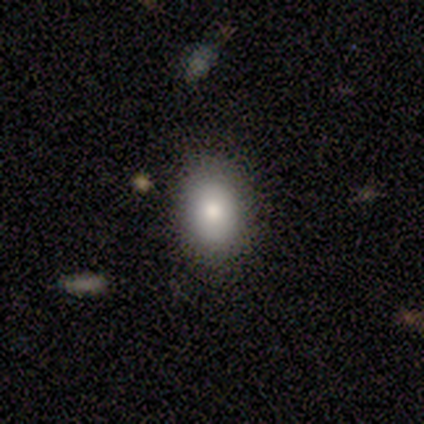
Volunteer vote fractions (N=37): Volunteers were most divided on "how rounded": in between: 80%, round: 20%, cigar-shaped: 0%. More confident: merging — none (88%); smooth or featured — smooth (81%).